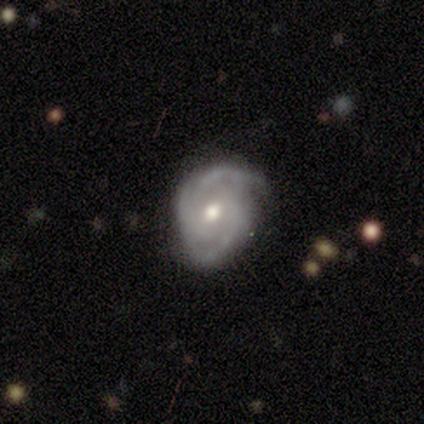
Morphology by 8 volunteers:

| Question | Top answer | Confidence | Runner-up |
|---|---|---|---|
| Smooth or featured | featured or disk | 100% | — |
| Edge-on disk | no | 88% | yes (12%) |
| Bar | no | 71% | strong (29%) |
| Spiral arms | yes | 100% | — |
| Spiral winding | tight | 57% | medium (43%) |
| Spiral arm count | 2 | 71% | 3 (29%) |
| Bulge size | moderate | 100% | — |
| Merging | none | 62% | minor disturbance (25%) |